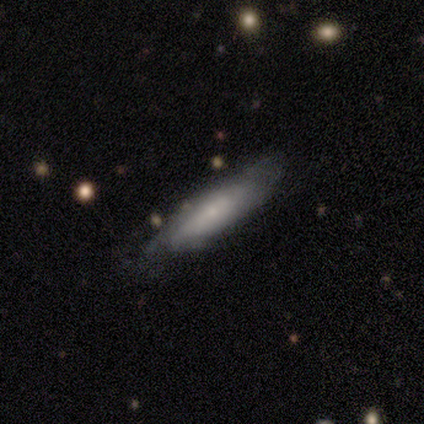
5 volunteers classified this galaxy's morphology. Smooth or featured? smooth (60%)
How rounded? cigar-shaped (67%)
Merging? none (50%, tied with minor disturbance)